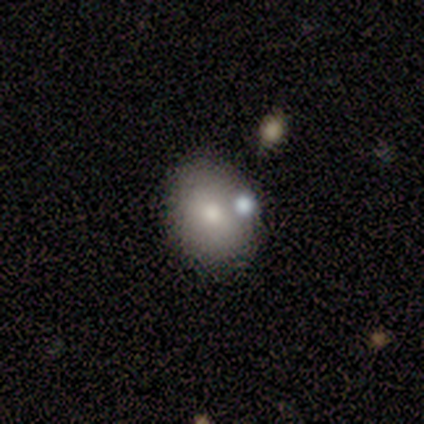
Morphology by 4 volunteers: smooth-or-featured: smooth: 50% | featured or disk: 25% | star or artifact: 25%
  how-rounded: round: 50% (tied) | in between: 50% (tied) | cigar-shaped: 0%
  merging: none: 67% | minor disturbance: 33% | major disturbance: 0% | merger: 0%